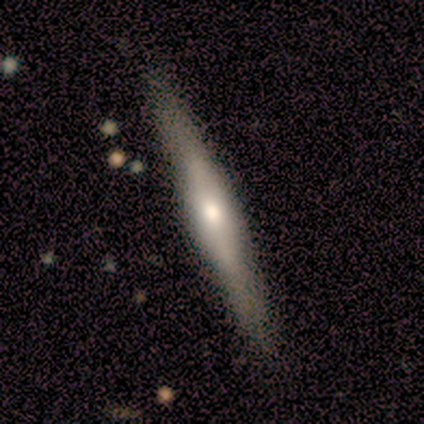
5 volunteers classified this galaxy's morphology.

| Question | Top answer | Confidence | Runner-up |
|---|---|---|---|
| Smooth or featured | featured or disk | 60% | smooth (40%) |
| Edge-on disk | yes | 100% | — |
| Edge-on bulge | rounded | 100% | — |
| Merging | none | 80% | minor disturbance (20%) |